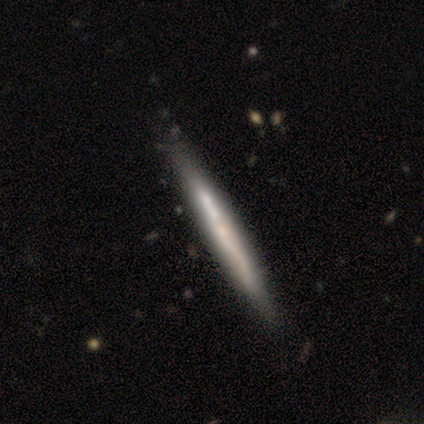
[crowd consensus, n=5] Morphology: type=featured or disk (60%); edge-on=yes (100%); edge-on bulge=none (100%); merging=none (100%).